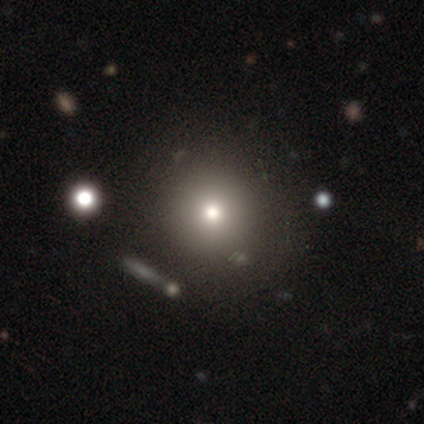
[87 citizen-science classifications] Q: Smooth or featured?
A: smooth (63%); runner-up: star or artifact (22%)
Q: How rounded?
A: round (98%); runner-up: in between (2%)
Q: Merging?
A: none (85%); runner-up: minor disturbance (7%)